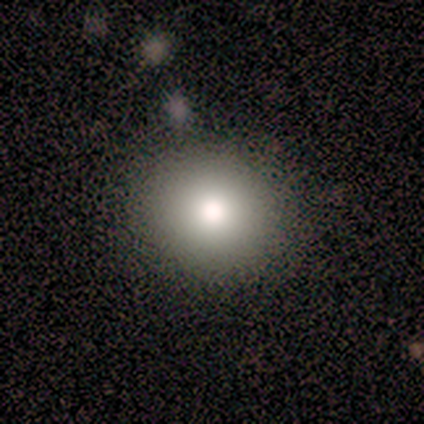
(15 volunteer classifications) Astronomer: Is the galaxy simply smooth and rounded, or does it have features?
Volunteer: smooth — 93%.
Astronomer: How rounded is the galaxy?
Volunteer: round — 86%.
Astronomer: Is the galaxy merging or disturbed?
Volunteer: none — 93%.